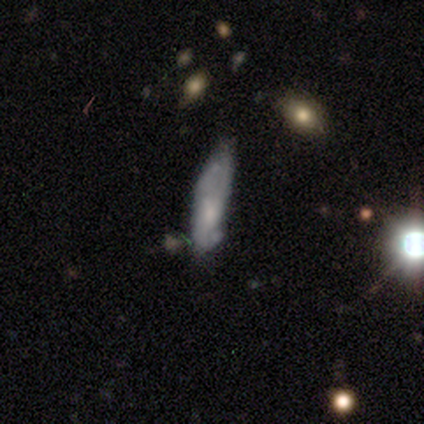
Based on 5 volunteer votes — smooth 60%, featured or disk 20%, star or artifact 20%. Down the decision tree: how rounded — cigar-shaped (67%); merging — none (100%).